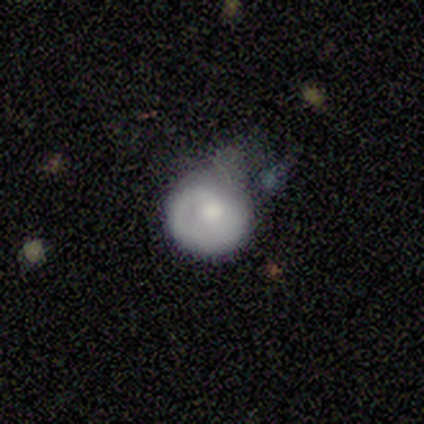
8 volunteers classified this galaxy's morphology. Smooth or featured?
  - featured or disk: 50% *
  - smooth: 38%
  - star or artifact: 12%
Edge-on disk?
  - no: 100% *
  - yes: 0%
Bar?
  - no: 100% *
  - strong: 0%
  - weak: 0%
Spiral arms?
  - no: 75% *
  - yes: 25%
Bulge size?
  - large: 75% *
  - moderate: 25%
  - dominant: 0%
  - small: 0%
  - none: 0%
Merging?
  - minor disturbance: 57% *
  - major disturbance: 29%
  - none: 14%
  - merger: 0%